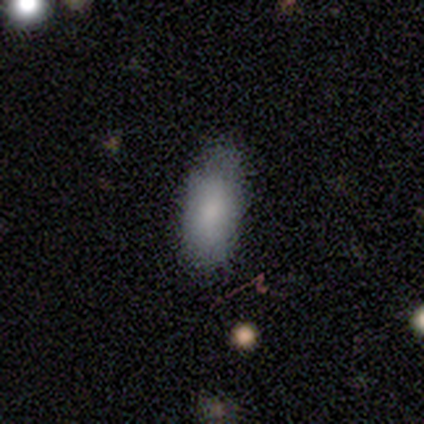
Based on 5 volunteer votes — Q: Smooth or featured?
A: smooth (80%); runner-up: star or artifact (20%)
Q: How rounded?
A: in between (50%); runner-up: round (25%)
Q: Merging?
A: none (75%); runner-up: major disturbance (25%)